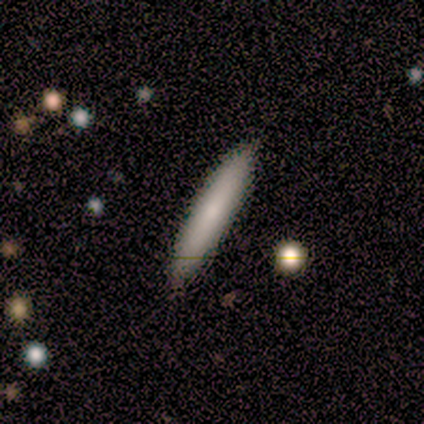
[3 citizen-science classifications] Smooth or featured? 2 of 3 (67%) said smooth. How rounded? 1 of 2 (50%, tied with cigar-shaped) said in between. Merging? 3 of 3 (100%) said none.